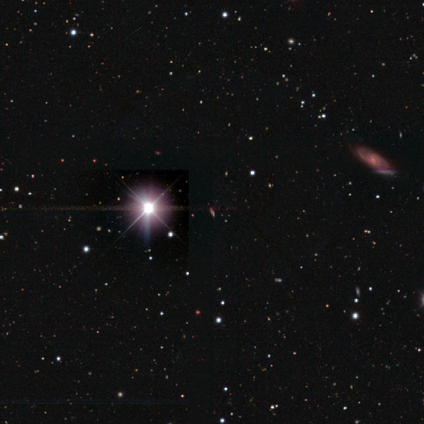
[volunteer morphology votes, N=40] This is clearly a star or artifact rather than a galaxy (90%).